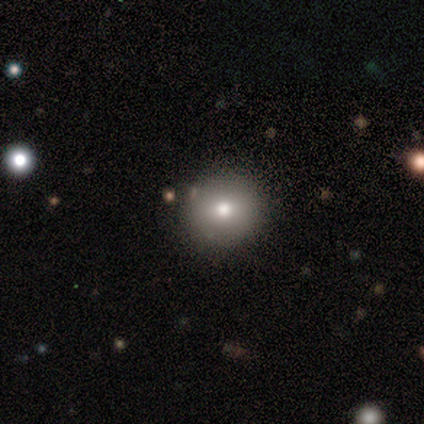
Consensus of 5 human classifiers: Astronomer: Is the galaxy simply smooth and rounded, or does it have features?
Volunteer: smooth — 60% (runner-up: featured or disk, 40%).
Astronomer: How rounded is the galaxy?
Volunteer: round — 100%.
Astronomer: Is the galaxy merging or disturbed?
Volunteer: none — 100%.